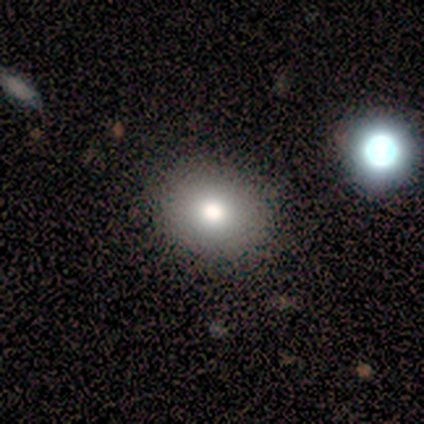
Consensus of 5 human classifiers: A smooth galaxy with no disk features (40%, tied with featured or disk) that is round (100%). Merging: none (100%).